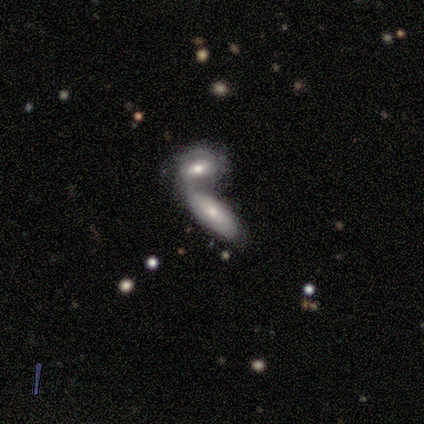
Morphology: type=smooth (50%, tied with featured or disk); roundness=in between (100%); merging=merger (100%).